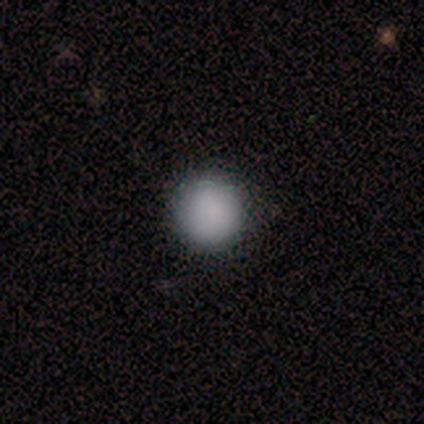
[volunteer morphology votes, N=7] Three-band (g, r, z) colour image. It shows a smooth galaxy with no disk features (71%) that is round (100%). Merging: none (100%).